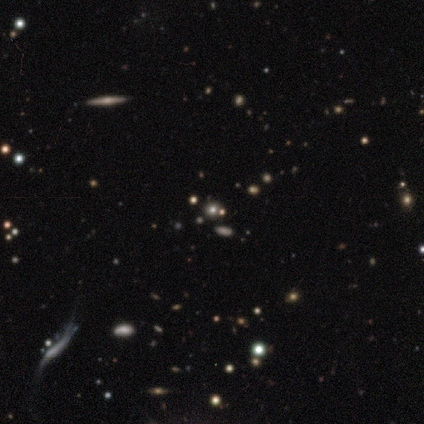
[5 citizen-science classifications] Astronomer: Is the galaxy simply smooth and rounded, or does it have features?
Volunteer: star or artifact — 60%.